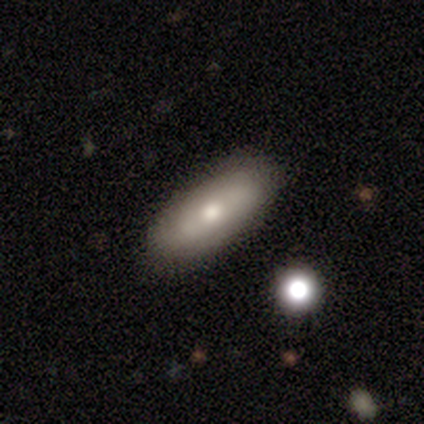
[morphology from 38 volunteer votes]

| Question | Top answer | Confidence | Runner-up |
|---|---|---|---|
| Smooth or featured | smooth | 53% | featured or disk (39%) |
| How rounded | in between | 85% | cigar-shaped (15%) |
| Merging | none | 91% | minor disturbance (9%) |